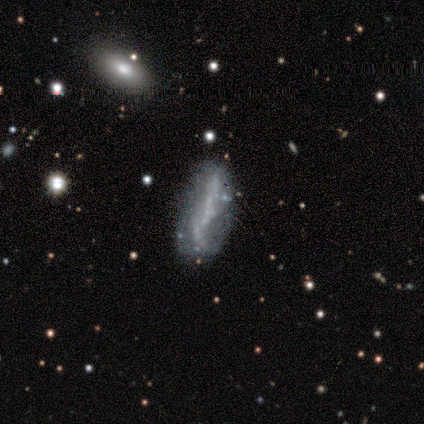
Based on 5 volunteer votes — smooth-or-featured: featured or disk: 100% | smooth: 0% | star or artifact: 0%
  disk-edge-on: no: 100% | yes: 0%
    bar: no: 80% | strong: 20% | weak: 0%
    has-spiral-arms: no: 100% | yes: 0%
    bulge-size: none: 100% | dominant: 0% | large: 0% | moderate: 0% | small: 0%
  merging: merger: 40% | none: 20% | minor disturbance: 20% | major disturbance: 20%